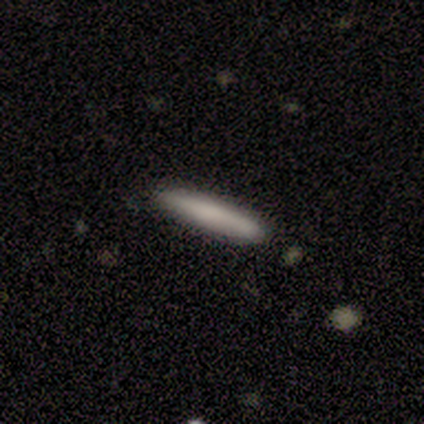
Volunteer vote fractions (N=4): A smooth galaxy with no disk features (100%) that is cigar-shaped (100%).

Vote fractions:
- Smooth or featured? smooth: 100% / featured or disk: 0% / star or artifact: 0%
- How rounded? cigar-shaped: 100% / round: 0% / in between: 0%
- Merging? none: 75% / minor disturbance: 25% / major disturbance: 0% / merger: 0%